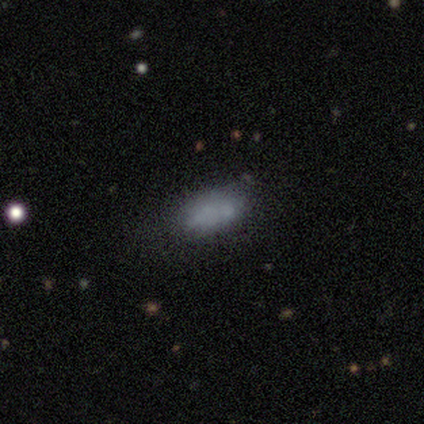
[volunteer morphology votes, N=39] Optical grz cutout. It shows a smooth galaxy with no disk features (72%) that is in between round and cigar-shaped (82%). Merging: none (58%).